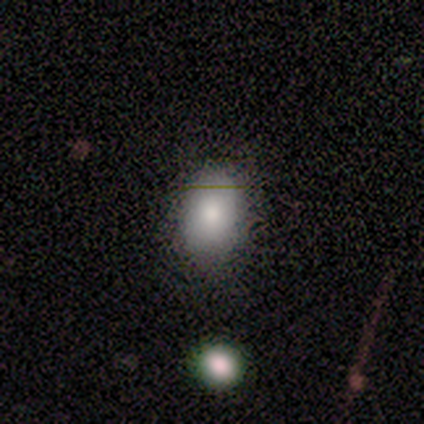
This appears to be a smooth galaxy with no disk features (100%) that is in between round and cigar-shaped (80%). Merging: none (80%).